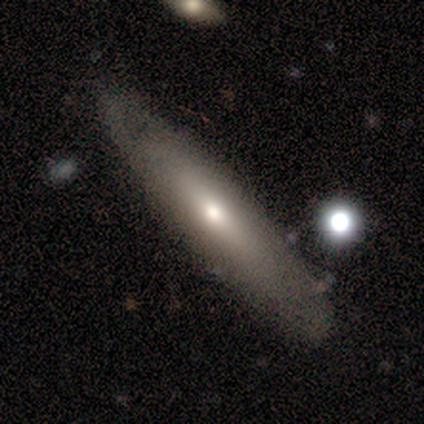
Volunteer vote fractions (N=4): Smooth or featured?
  - smooth: 50% * (tied)
  - featured or disk: 50% * (tied)
  - star or artifact: 0%
How rounded?
  - cigar-shaped: 100% *
  - round: 0%
  - in between: 0%
Merging?
  - none: 100% *
  - minor disturbance: 0%
  - major disturbance: 0%
  - merger: 0%